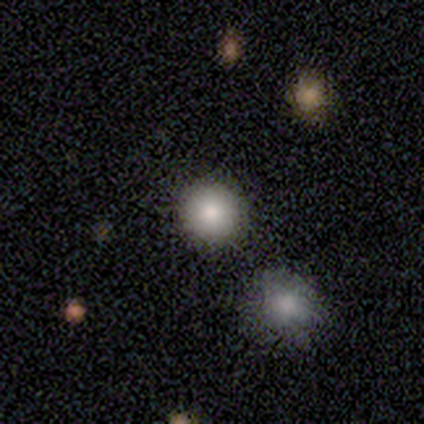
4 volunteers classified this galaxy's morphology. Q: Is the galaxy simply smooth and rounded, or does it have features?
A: smooth — 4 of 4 (100%).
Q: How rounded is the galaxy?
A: round — 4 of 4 (100%).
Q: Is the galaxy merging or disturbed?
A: none — 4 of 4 (100%).